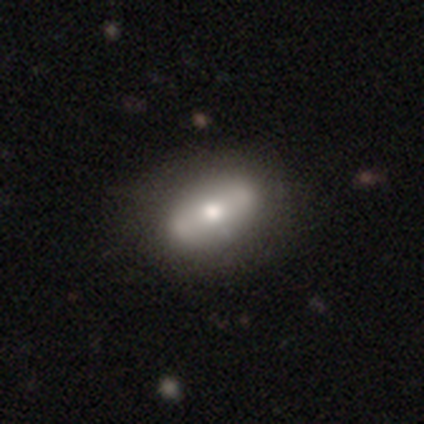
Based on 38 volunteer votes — A smooth galaxy with no disk features (50%) that is in between round and cigar-shaped (89%). Merging: none (54%).